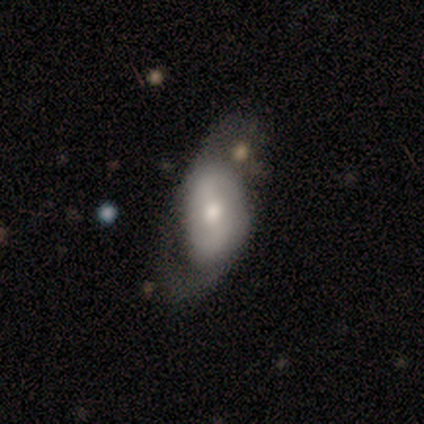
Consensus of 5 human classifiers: Morphology: type=featured or disk (80%); edge-on=no (100%); bar=weak (50%); spiral arms=yes (75%); winding=tight (33%, tied with medium and loose); arm count=2 (100%); bulge=moderate (75%); merging=none (60%).